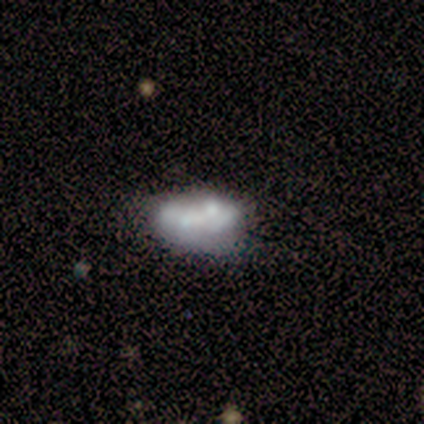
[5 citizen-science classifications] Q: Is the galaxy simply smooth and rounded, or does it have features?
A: featured or disk — 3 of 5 (60%).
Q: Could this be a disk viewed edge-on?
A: no — 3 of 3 (100%).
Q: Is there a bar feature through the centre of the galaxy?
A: no — 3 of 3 (100%).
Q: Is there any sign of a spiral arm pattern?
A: no — 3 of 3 (100%).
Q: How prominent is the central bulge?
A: none — 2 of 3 (67%).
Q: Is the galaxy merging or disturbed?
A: minor disturbance — 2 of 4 (50%).